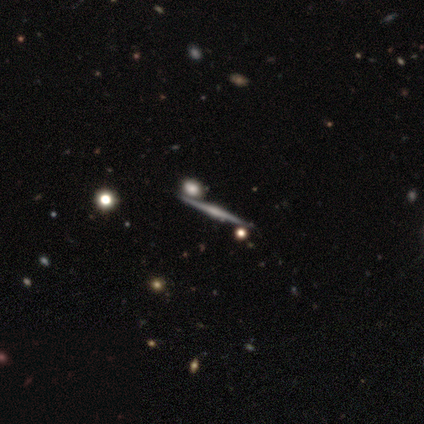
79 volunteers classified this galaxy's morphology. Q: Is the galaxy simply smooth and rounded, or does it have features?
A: featured or disk — 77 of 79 (97%).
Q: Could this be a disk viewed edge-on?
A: yes — 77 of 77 (100%).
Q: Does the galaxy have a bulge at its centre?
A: rounded — 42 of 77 (55%).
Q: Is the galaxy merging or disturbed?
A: none — 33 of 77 (43%).